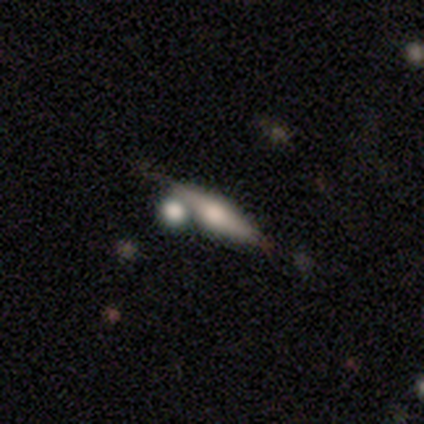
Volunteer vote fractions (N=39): smooth-or-featured: featured or disk: 67% | smooth: 26% | star or artifact: 8%
  disk-edge-on: yes: 92% | no: 8%
    edge-on-bulge: rounded: 100% | boxy: 0% | none: 0%
  merging: none: 69% | merger: 22% | minor disturbance: 6% | major disturbance: 3%